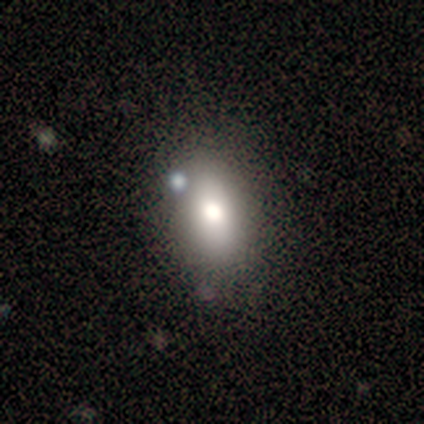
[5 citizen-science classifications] Overall: smooth (80%). How rounded: in between (100%). Merging: none (80%).